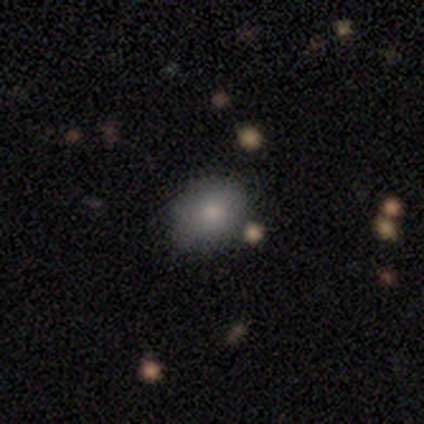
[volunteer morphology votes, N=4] This appears to be a smooth galaxy with no disk features (100%) that is round (50%, tied with in between). Merging: none (75%).